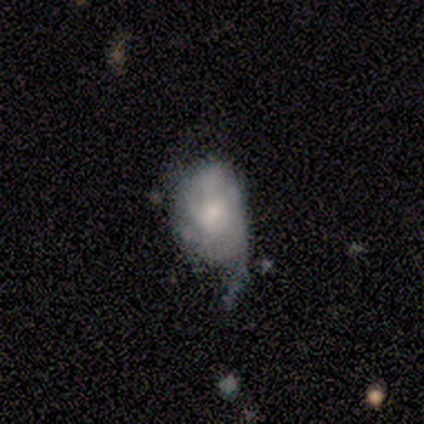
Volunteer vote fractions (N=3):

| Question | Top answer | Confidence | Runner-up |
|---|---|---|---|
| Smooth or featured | smooth | 100% | — |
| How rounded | in between | 100% | — |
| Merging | major disturbance | 67% | none (33%) |